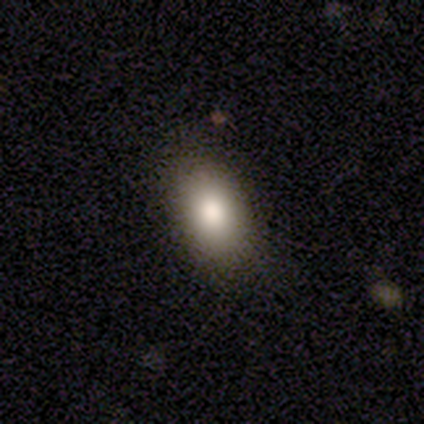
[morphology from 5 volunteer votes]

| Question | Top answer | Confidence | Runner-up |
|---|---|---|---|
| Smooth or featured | smooth | 60% | featured or disk (40%) |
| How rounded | in between | 100% | — |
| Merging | none | 80% | minor disturbance (20%) |